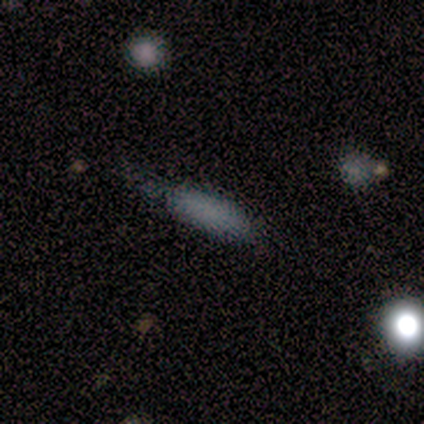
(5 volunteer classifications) Morphology: type=smooth (80%); roundness=in between (75%); merging=none (50%, tied with minor disturbance).